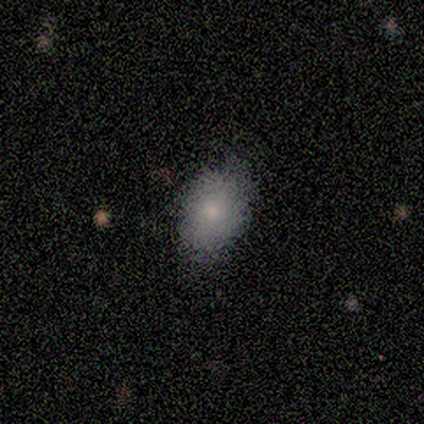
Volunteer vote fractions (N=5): Smooth or featured? 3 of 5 (60%) said smooth. How rounded? 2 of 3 (67%) said in between. Merging? 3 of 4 (75%) said none.